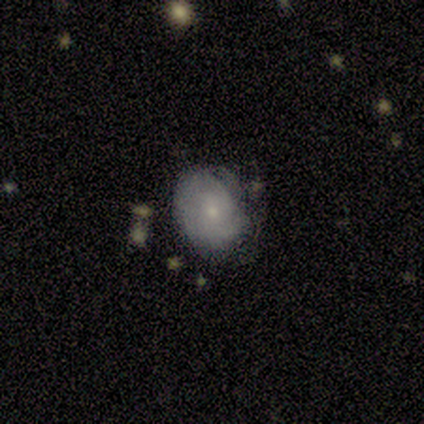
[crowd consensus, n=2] Volunteers were most divided on "merging" (2-way tie): none: 50%, minor disturbance: 50%, major disturbance: 0%, merger: 0%. More confident: smooth or featured — smooth (100%); how rounded — round (100%).